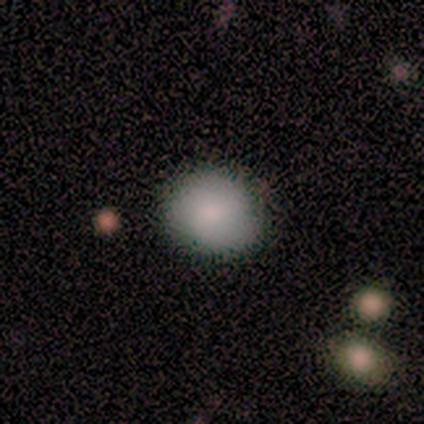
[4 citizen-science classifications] Smooth or featured: smooth — 100%
How rounded: round — 75% (in between — 25%)
Merging: none — 50% (tied with minor disturbance — 50%)